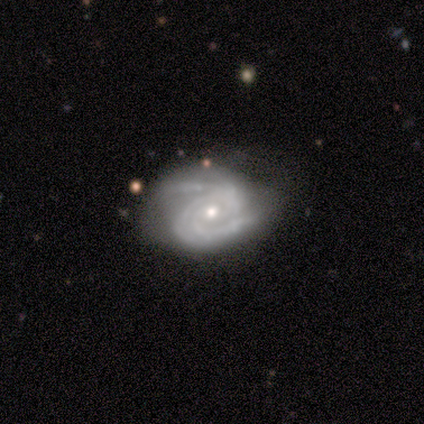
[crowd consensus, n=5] Q: Smooth or featured?
A: featured or disk (100%)
Q: Edge-on disk?
A: no (100%)
Q: Bar?
A: weak (40%); tied with: no (40%)
Q: Spiral arms?
A: yes (100%)
Q: Spiral winding?
A: tight (80%); runner-up: medium (20%)
Q: Spiral arm count?
A: 2 (40%); tied with: 3 (40%)
Q: Bulge size?
A: moderate (80%); runner-up: small (20%)
Q: Merging?
A: none (60%); runner-up: minor disturbance (20%)